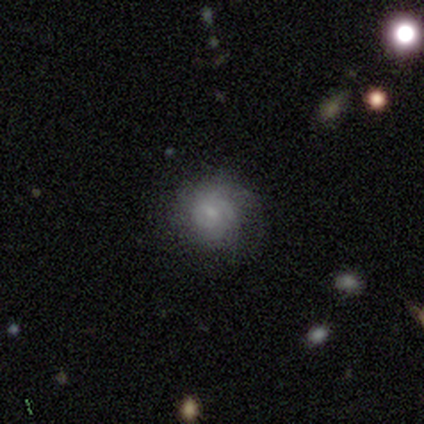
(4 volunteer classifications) This appears to be a featured or disk galaxy (75%) with no bar (100%), 2 (33%, tied with 3 and can't tell) medium (67%) spiral arms (100%) and a small central bulge (100%). Merging: none (50%).